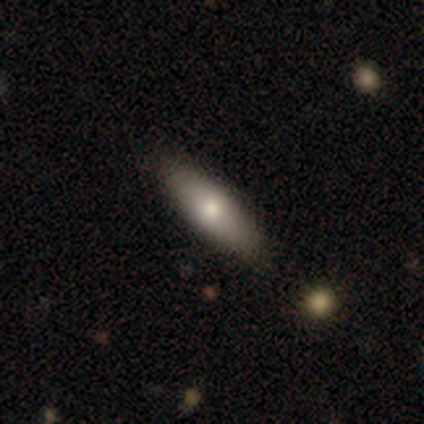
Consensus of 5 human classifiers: Smooth or featured: featured or disk — 60% (smooth — 40%)
Edge-on disk: yes — 67% (no — 33%)
Edge-on bulge: rounded — 100%
Merging: none — 60% (minor disturbance — 20%)